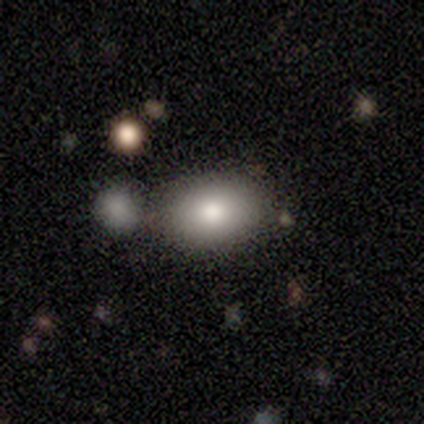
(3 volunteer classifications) Morphology: type=smooth (67%); roundness=in between (100%); merging=none (50%, tied with merger).